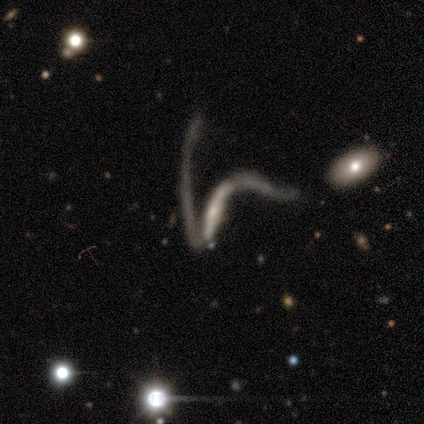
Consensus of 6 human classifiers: Smooth or featured: featured or disk — 83% (smooth — 17%)
Edge-on disk: no — 60% (yes — 40%)
Bar: no — 67% (strong — 33%)
Spiral arms: yes — 67% (no — 33%)
Spiral winding: loose — 100%
Spiral arm count: 2 — 100%
Bulge size: small — 67% (none — 33%)
Merging: major disturbance — 67% (none — 17%)